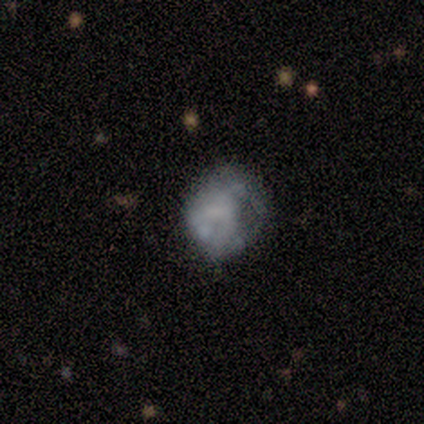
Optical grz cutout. It shows a smooth galaxy with no disk features (50%, tied with featured or disk) that is in between round and cigar-shaped (100%). Merging: major disturbance (50%).